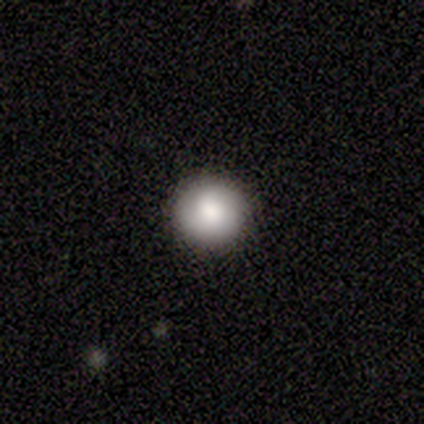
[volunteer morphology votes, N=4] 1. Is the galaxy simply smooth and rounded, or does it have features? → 75% smooth, 25% featured or disk, 0% star or artifact.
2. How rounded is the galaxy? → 67% round, 33% in between, 0% cigar-shaped.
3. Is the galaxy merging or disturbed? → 100% none, 0% minor disturbance, 0% major disturbance, 0% merger.